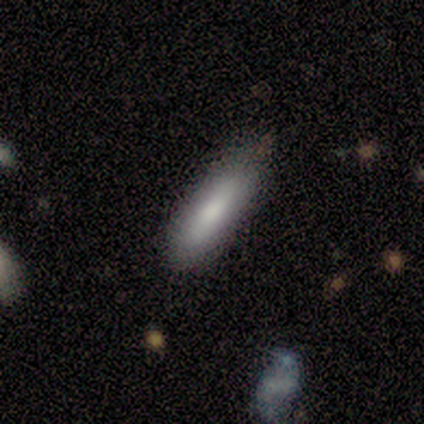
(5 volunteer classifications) Smooth or featured?
  - smooth: 100% *
  - featured or disk: 0%
  - star or artifact: 0%
How rounded?
  - cigar-shaped: 100% *
  - round: 0%
  - in between: 0%
Merging?
  - none: 80% *
  - minor disturbance: 20%
  - major disturbance: 0%
  - merger: 0%